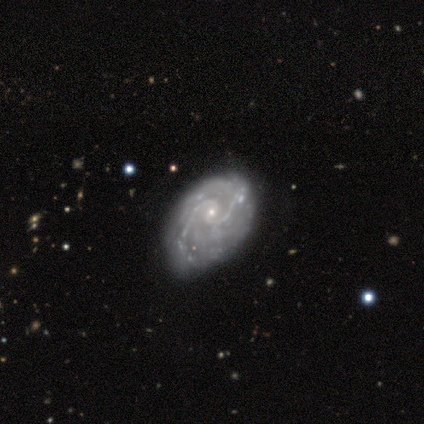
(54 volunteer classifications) Smooth or featured: featured or disk — 87% (smooth — 11%)
Edge-on disk: no — 100%
Bar: no — 79% (weak — 19%)
Spiral arms: yes — 96% (no — 4%)
Spiral winding: tight — 47% (medium — 36%)
Spiral arm count: 2 — 71% (can't tell — 13%)
Bulge size: small — 85% (moderate — 13%)
Merging: none — 36% (minor disturbance — 28%)